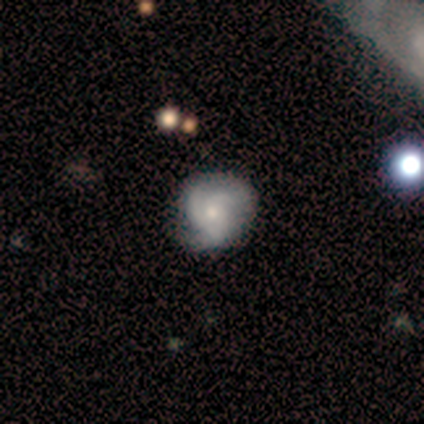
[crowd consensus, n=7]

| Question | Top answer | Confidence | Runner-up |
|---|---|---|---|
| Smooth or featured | featured or disk | 100% | — |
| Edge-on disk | no | 100% | — |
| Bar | no | 71% | strong (14%) |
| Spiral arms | yes | 86% | no (14%) |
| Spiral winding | medium | 50% | loose (33%) |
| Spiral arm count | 3 | 100% | — |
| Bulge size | small | 57% | moderate (29%) |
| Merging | none | 86% | minor disturbance (14%) |